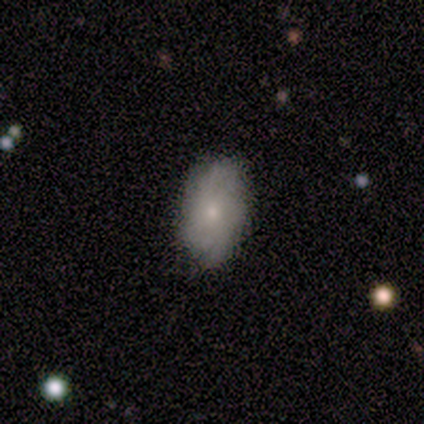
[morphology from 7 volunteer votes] featured or disk 57%, smooth 43%, star or artifact 0%. Down the decision tree: edge-on disk — yes (50%, tied with no); edge-on bulge — rounded (100%); merging — none (100%).